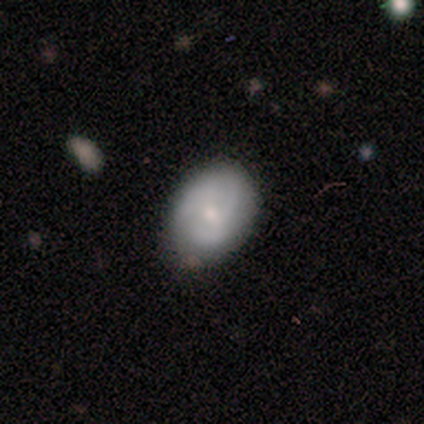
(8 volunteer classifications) smooth_or_featured: featured or disk (p=0.62) [alt: smooth p=0.38]
disk_edge_on: no (p=1.00)
bar: no (p=1.00)
has_spiral_arms: yes (p=0.60) [alt: no p=0.40]
spiral_winding: tight (p=1.00)
spiral_arm_count: 3 (p=0.67) [alt: 4 p=0.33]
bulge_size: moderate (p=0.40) [tied with: small p=0.40]
merging: none (p=0.50) [tied with: minor disturbance p=0.50]